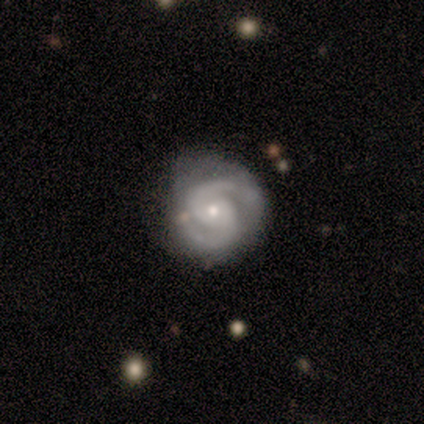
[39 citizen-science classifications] This is clearly a featured or disk galaxy (97%). It is clearly not viewed edge-on (100%). Bar: possibly no (58%). Spiral arm pattern: clearly yes (100%). Spiral arm count: clearly 2 (97%). Spiral winding: possibly tight (58%). Central bulge: likely small (61%). Merging: marginally none (44%).